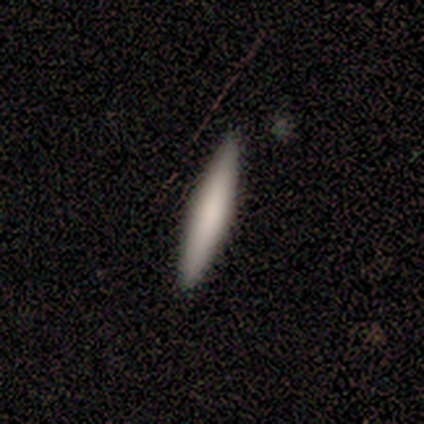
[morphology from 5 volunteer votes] Q: Smooth or featured?
A: smooth (80%); runner-up: featured or disk (20%)
Q: How rounded?
A: cigar-shaped (100%)
Q: Merging?
A: none (80%); runner-up: merger (20%)